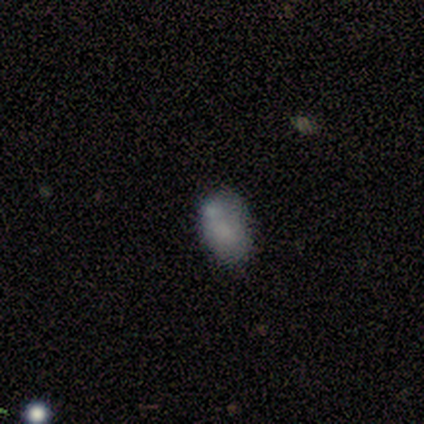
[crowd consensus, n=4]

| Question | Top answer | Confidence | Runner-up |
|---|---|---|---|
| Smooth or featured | smooth | 50% | tied: star or artifact (50%) |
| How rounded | in between | 100% | — |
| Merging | none | 50% | tied: minor disturbance (50%) |